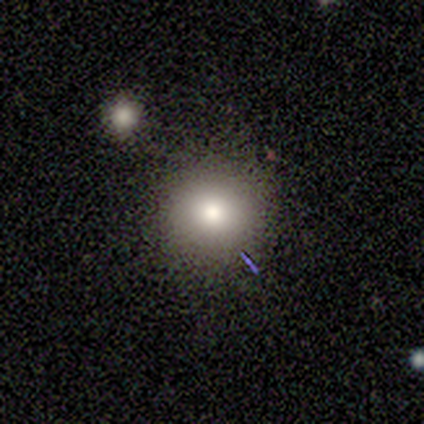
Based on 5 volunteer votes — Volunteers were most divided on "merging": none: 60%, minor disturbance: 40%, major disturbance: 0%, merger: 0%. More confident: how rounded — round (100%); smooth or featured — smooth (80%).